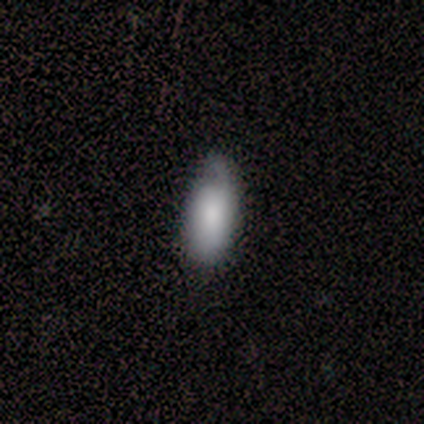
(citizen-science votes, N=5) Volunteers were most divided on "smooth or featured" (2-way tie): smooth: 40%, featured or disk: 40%, star or artifact: 20%; "merging" (2-way tie): none: 50%, minor disturbance: 50%, major disturbance: 0%, merger: 0%. More confident: how rounded — in between (100%).